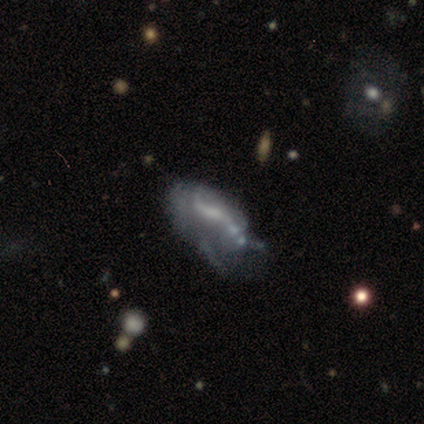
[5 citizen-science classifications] A featured or disk galaxy (80%) with a strong bar (50%), no spiral arms (75%) and no central bulge (50%). Merging: minor disturbance (60%).